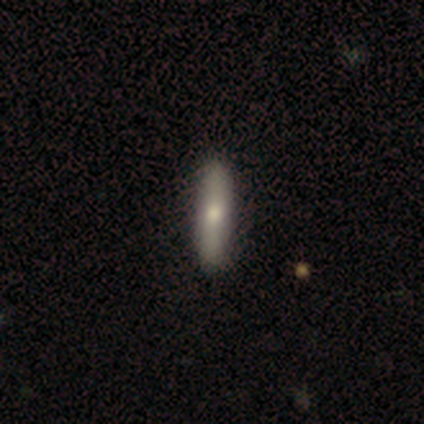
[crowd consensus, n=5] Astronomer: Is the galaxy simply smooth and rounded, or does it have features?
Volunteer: smooth — 60% (runner-up: star or artifact, 40%).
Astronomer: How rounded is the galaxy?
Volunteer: cigar-shaped — 100%.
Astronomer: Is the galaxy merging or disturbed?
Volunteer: none — 100%.